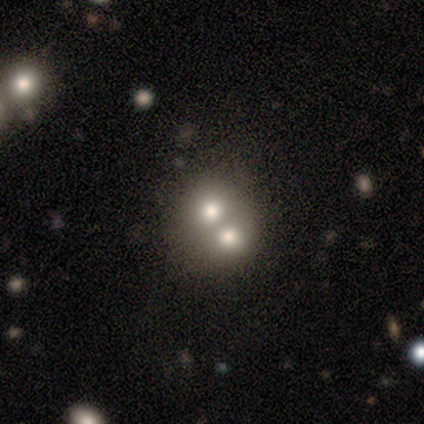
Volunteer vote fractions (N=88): Smooth or featured?
  - smooth: 47% *
  - featured or disk: 39%
  - star or artifact: 15%
How rounded?
  - round: 56% *
  - in between: 41%
  - cigar-shaped: 2%
Merging?
  - merger: 75% *
  - none: 19%
  - minor disturbance: 5%
  - major disturbance: 1%